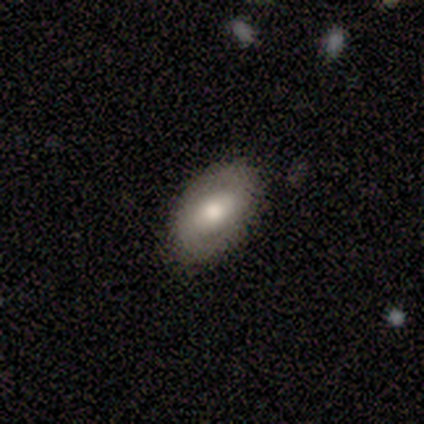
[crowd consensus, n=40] Volunteers were most divided on "smooth or featured": smooth: 52%, featured or disk: 42%, star or artifact: 5%. More confident: merging — none (89%); how rounded — in between (86%).